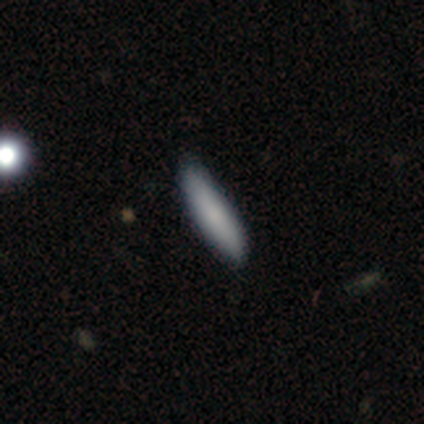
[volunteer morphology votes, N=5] Smooth or featured?
  - smooth: 60% *
  - featured or disk: 20%
  - star or artifact: 20%
How rounded?
  - in between: 100% *
  - round: 0%
  - cigar-shaped: 0%
Merging?
  - none: 75% *
  - minor disturbance: 25%
  - major disturbance: 0%
  - merger: 0%